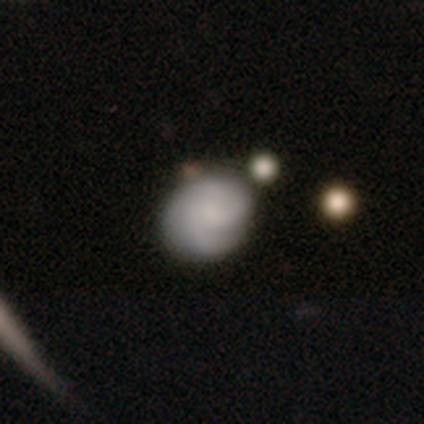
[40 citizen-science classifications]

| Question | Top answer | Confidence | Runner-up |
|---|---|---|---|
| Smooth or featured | smooth | 52% | featured or disk (48%) |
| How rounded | round | 67% | in between (33%) |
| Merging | none | 75% | minor disturbance (18%) |